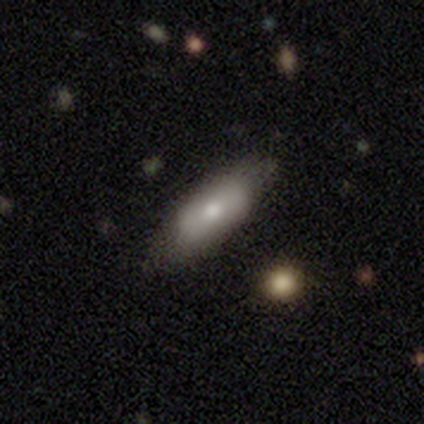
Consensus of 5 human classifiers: Q: Smooth or featured?
A: featured or disk (60%); runner-up: smooth (20%)
Q: Edge-on disk?
A: no (67%); runner-up: yes (33%)
Q: Bar?
A: strong (50%); tied with: weak (50%)
Q: Spiral arms?
A: yes (50%); tied with: no (50%)
Q: Spiral winding?
A: medium (100%)
Q: Spiral arm count?
A: 2 (100%)
Q: Bulge size?
A: large (50%); tied with: small (50%)
Q: Merging?
A: none (75%); runner-up: major disturbance (25%)